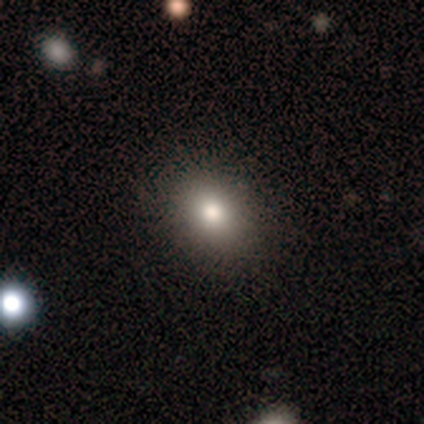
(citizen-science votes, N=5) Volunteers were most divided on "how rounded": in between: 67%, round: 33%, cigar-shaped: 0%. More confident: merging — none (100%); smooth or featured — smooth (60%).